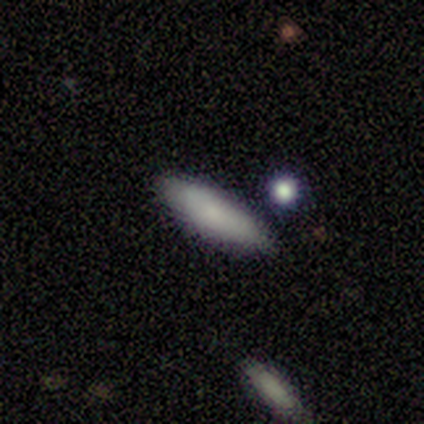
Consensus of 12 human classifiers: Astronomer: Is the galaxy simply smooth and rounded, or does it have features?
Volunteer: smooth — 83%.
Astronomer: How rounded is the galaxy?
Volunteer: in between — 50%, tied with cigar-shaped at 50%.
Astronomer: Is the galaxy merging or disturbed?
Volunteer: none — 82%.